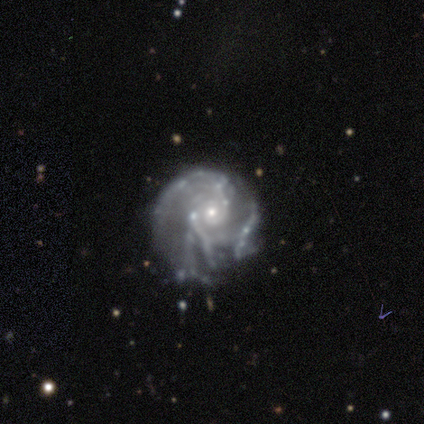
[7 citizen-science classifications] Smooth or featured?
  - featured or disk: 100% *
  - smooth: 0%
  - star or artifact: 0%
Edge-on disk?
  - no: 100% *
  - yes: 0%
Bar?
  - no: 86% *
  - weak: 14%
  - strong: 0%
Spiral arms?
  - yes: 100% *
  - no: 0%
Spiral winding?
  - tight: 43% * (tied)
  - medium: 43% * (tied)
  - loose: 14%
Spiral arm count?
  - can't tell: 43% *
  - 2: 29%
  - 3: 14%
  - 4: 14%
  - 1: 0%
  - more than 4: 0%
Bulge size?
  - small: 86% *
  - moderate: 14%
  - dominant: 0%
  - large: 0%
  - none: 0%
Merging?
  - none: 57% *
  - minor disturbance: 29%
  - merger: 14%
  - major disturbance: 0%